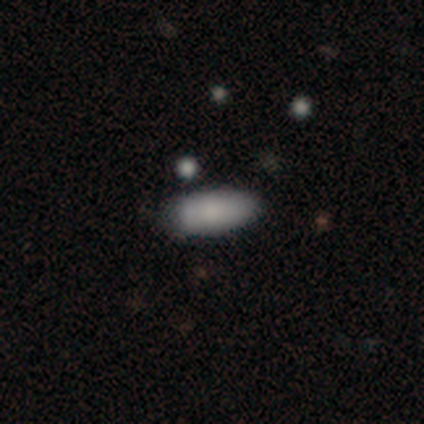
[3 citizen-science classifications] Smooth or featured? smooth (100%)
How rounded? in between (67%)
Merging? none (100%)